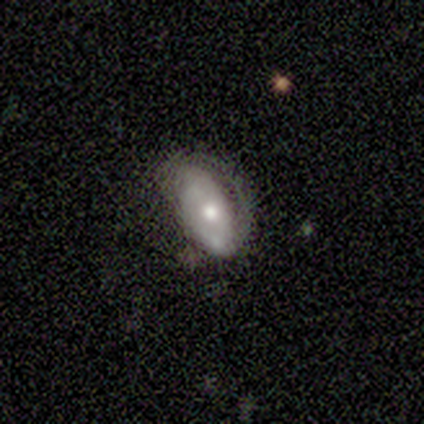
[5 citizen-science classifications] featured or disk 80%, smooth 20%, star or artifact 0%. Down the decision tree: edge-on disk — no (100%); bar — no (75%); spiral arms — no (75%); bulge size — moderate (50%, tied with small); merging — major disturbance (40%).